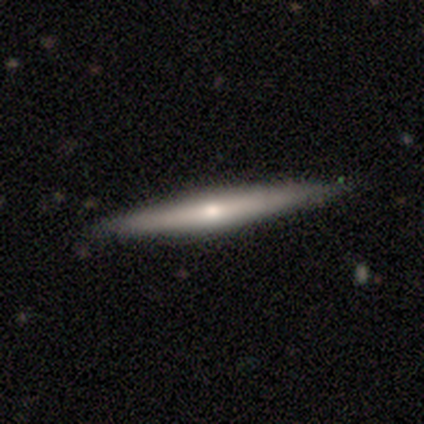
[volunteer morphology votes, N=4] Q: Smooth or featured?
A: featured or disk (75%); runner-up: smooth (25%)
Q: Edge-on disk?
A: yes (100%)
Q: Edge-on bulge?
A: rounded (67%); runner-up: none (33%)
Q: Merging?
A: none (100%)